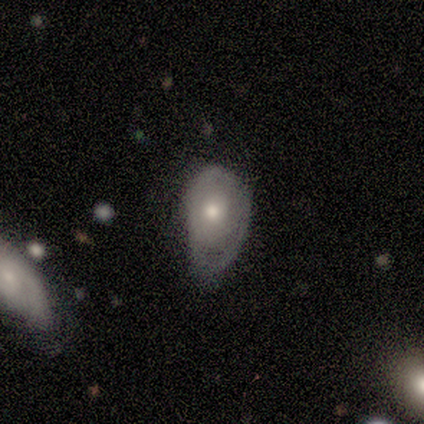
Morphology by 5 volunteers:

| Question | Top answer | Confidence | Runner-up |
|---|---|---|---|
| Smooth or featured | smooth | 60% | featured or disk (20%) |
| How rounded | in between | 100% | — |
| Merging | minor disturbance | 50% | none (25%) |